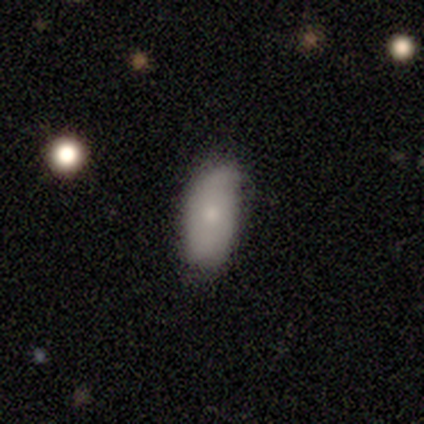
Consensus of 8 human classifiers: This is clearly a smooth galaxy (88%). How rounded: clearly in between (100%). Merging: clearly none (86%).